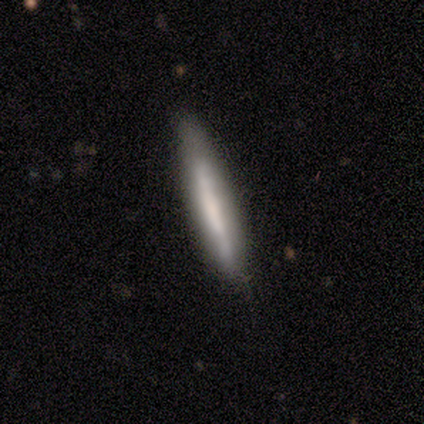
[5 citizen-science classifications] Smooth or featured: smooth — 60% (featured or disk — 20%)
How rounded: cigar-shaped — 100%
Merging: none — 75% (minor disturbance — 25%)